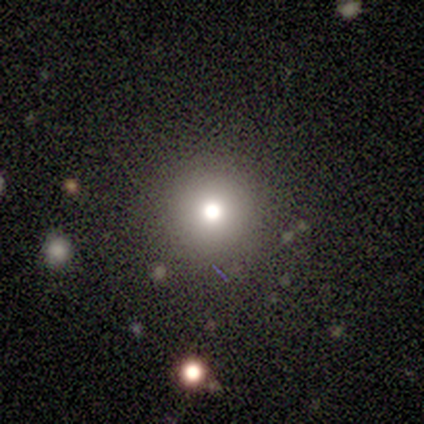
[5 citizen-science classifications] This appears to be a smooth galaxy with no disk features (80%) that is round (100%). Merging: none (80%).